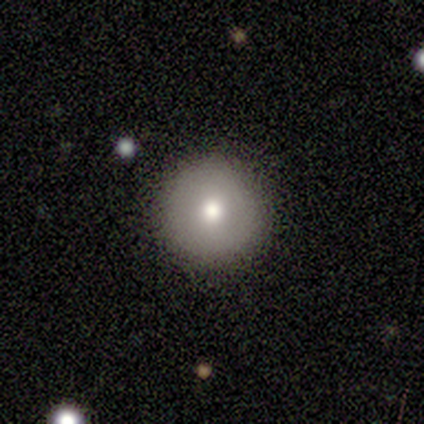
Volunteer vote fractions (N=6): smooth_or_featured: smooth (p=0.67) [alt: featured or disk p=0.33]
how_rounded: round (p=0.75) [alt: in between p=0.25]
merging: none (p=0.83) [alt: minor disturbance p=0.17]